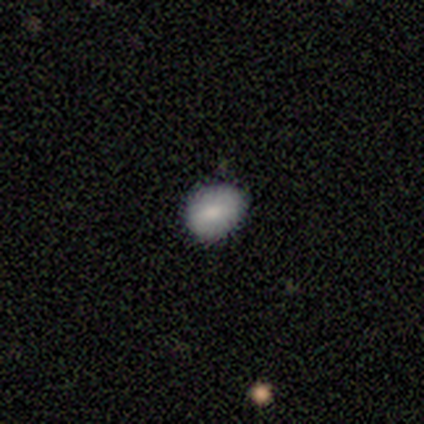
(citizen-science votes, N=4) Q: Smooth or featured?
A: smooth (100%)
Q: How rounded?
A: in between (75%); runner-up: round (25%)
Q: Merging?
A: none (100%)